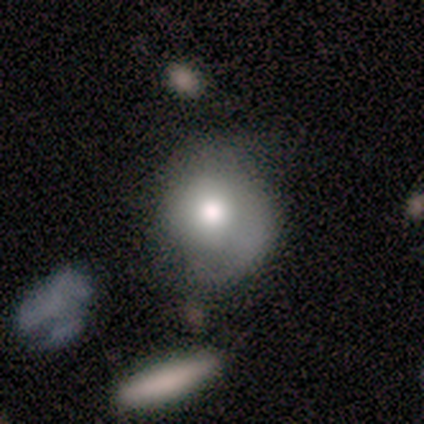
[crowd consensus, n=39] Q: Smooth or featured?
A: smooth (56%); runner-up: featured or disk (41%)
Q: How rounded?
A: round (82%); runner-up: in between (14%)
Q: Merging?
A: minor disturbance (37%); runner-up: none (34%)